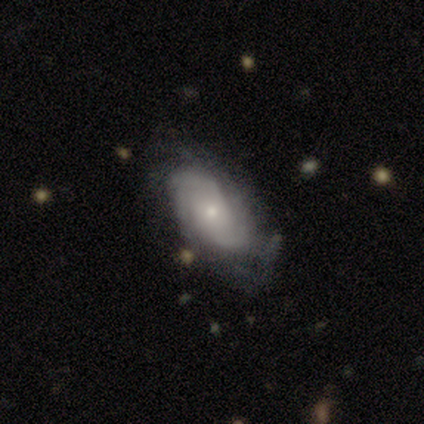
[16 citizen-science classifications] Overall: featured or disk (81%). Edge-on disk: no (100%). Bar: no (85%). Spiral arms: yes (85%). Spiral arm count: can't tell (55%; 3 27%). Spiral winding: tight (82%). Bulge size: small (54%; moderate 46%). Merging: none (62%; minor disturbance 25%).